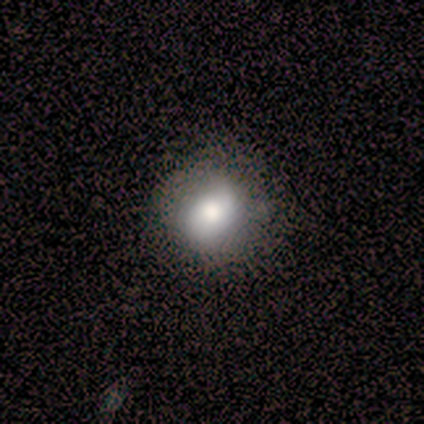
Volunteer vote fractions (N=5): A smooth galaxy with no disk features (40%, tied with featured or disk) that is round (100%). Merging: none (50%, tied with minor disturbance).